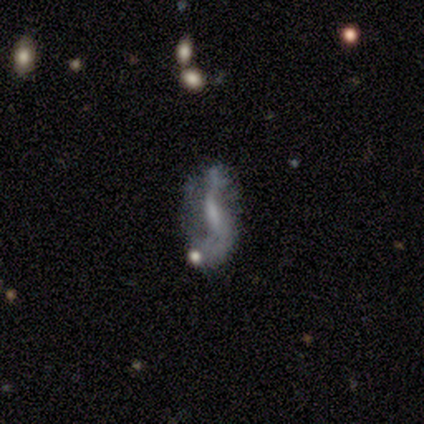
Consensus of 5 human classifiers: Q: Smooth or featured?
A: featured or disk (80%); runner-up: star or artifact (20%)
Q: Edge-on disk?
A: no (75%); runner-up: yes (25%)
Q: Bar?
A: strong (33%); tied with: weak (33%); no (33%)
Q: Spiral arms?
A: yes (67%); runner-up: no (33%)
Q: Spiral winding?
A: loose (100%)
Q: Spiral arm count?
A: 2 (100%)
Q: Bulge size?
A: none (67%); runner-up: large (33%)
Q: Merging?
A: none (50%); runner-up: major disturbance (25%)